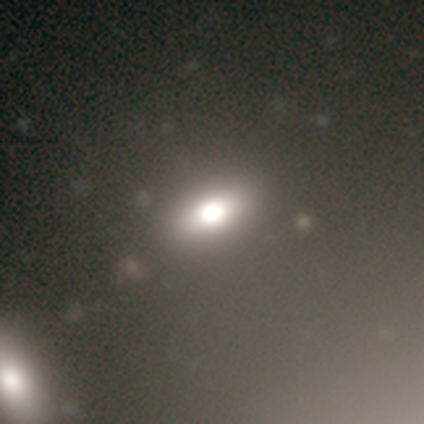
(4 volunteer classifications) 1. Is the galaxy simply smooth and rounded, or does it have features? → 50% smooth, 25% featured or disk, 25% star or artifact.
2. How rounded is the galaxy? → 50% in between (tied), 50% cigar-shaped (tied), 0% round.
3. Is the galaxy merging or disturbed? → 100% none, 0% minor disturbance, 0% major disturbance, 0% merger.